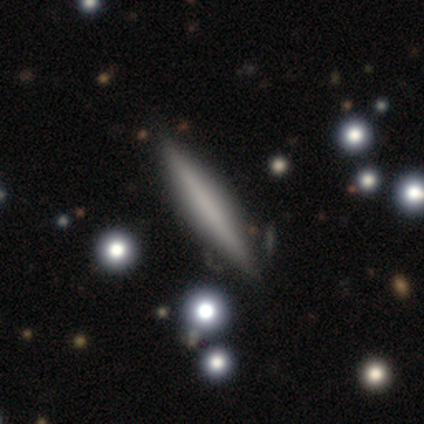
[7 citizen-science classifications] Morphology: type=featured or disk (57%); edge-on=yes (100%); edge-on bulge=none (100%); merging=none (67%).